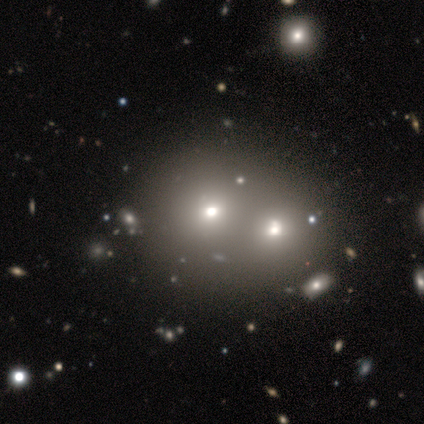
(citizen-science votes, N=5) smooth-or-featured: smooth: 80% | featured or disk: 20% | star or artifact: 0%
  how-rounded: round: 75% | in between: 25% | cigar-shaped: 0%
  merging: merger: 80% | none: 20% | minor disturbance: 0% | major disturbance: 0%